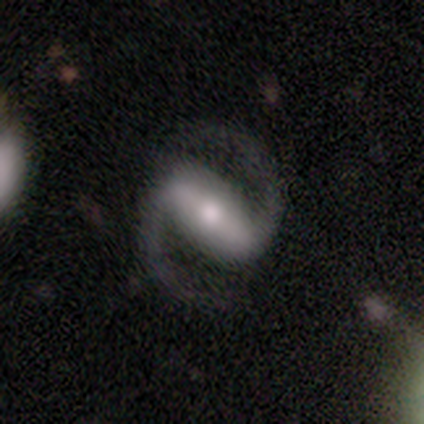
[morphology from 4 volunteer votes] This appears to be a featured or disk galaxy (75%) with a strong bar (100%), 2 (100%) loose (67%) spiral arms (100%) and a large central bulge (67%). Merging: none (100%).